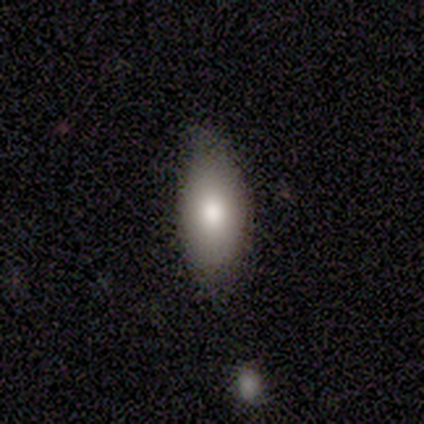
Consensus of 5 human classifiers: This appears to be a smooth galaxy with no disk features (60%) that is in between round and cigar-shaped (100%). Merging: none (50%).